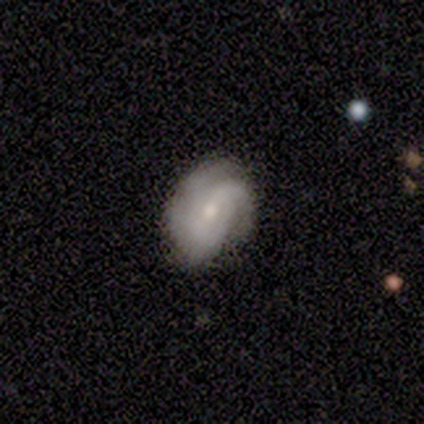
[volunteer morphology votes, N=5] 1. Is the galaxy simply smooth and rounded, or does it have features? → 100% featured or disk, 0% smooth, 0% star or artifact.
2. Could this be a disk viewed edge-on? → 100% no, 0% yes.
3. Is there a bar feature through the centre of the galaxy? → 60% weak, 40% no, 0% strong.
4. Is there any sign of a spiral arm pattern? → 100% yes, 0% no.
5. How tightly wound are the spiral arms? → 60% tight, 20% medium, 20% loose.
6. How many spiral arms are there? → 40% 2 (tied), 40% can't tell (tied), 20% 4, 0% 1, 0% 3, 0% more than 4.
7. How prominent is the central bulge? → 60% small, 40% moderate, 0% dominant, 0% large, 0% none.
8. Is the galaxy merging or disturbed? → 80% none, 20% major disturbance, 0% minor disturbance, 0% merger.